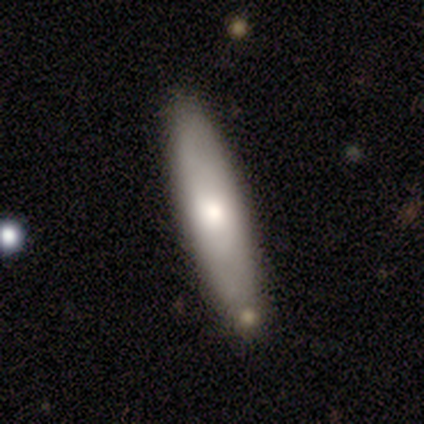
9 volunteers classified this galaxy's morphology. Smooth or featured? smooth (78%)
How rounded? cigar-shaped (57%)
Merging? none (78%)